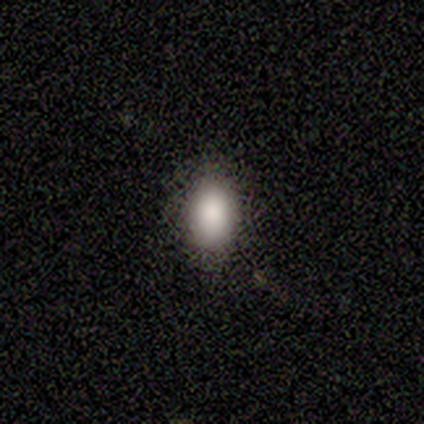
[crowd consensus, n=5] This is clearly a smooth galaxy (100%). How rounded: clearly in between (80%). Merging: clearly none (100%).